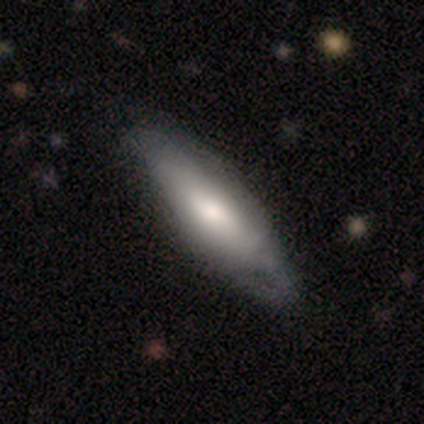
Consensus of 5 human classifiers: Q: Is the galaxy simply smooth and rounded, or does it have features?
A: smooth — 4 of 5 (80%).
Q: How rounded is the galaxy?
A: in between — 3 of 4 (75%).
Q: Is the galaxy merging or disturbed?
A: none — 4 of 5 (80%).